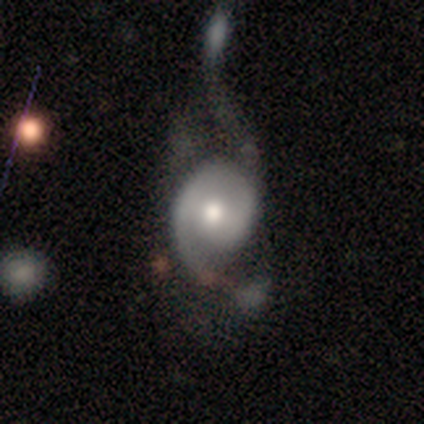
smooth-or-featured: featured or disk: 75% | smooth: 25% | star or artifact: 0%
  disk-edge-on: no: 100% | yes: 0%
    bar: no: 100% | strong: 0% | weak: 0%
    has-spiral-arms: yes: 100% | no: 0%
      spiral-winding: tight: 100% | medium: 0% | loose: 0%
      spiral-arm-count: 1: 67% | 2: 33% | 3: 0% | 4: 0% | more than 4: 0% | can't tell: 0%
    bulge-size: small: 67% | moderate: 33% | dominant: 0% | large: 0% | none: 0%
  merging: none: 50% | major disturbance: 25% | merger: 25% | minor disturbance: 0%